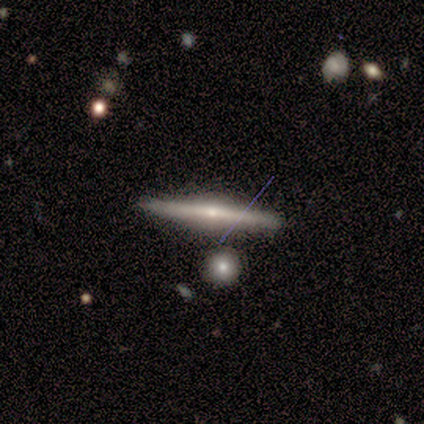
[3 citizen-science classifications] Smooth or featured? 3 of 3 (100%) said featured or disk. Edge-on disk? 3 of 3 (100%) said yes. Edge-on bulge? 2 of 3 (67%) said rounded. Merging? 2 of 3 (67%) said minor disturbance.